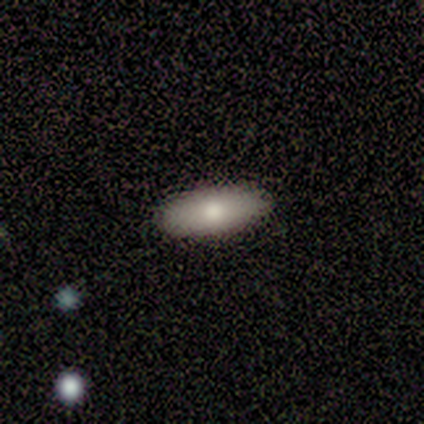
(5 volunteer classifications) Morphology: type=smooth (80%); roundness=in between (75%); merging=none (80%).